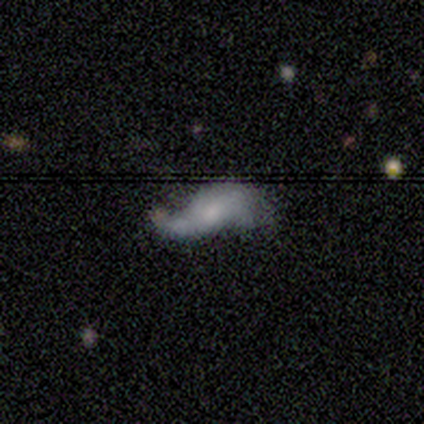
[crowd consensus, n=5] Smooth or featured: featured or disk — 80% (smooth — 20%)
Edge-on disk: no — 75% (yes — 25%)
Bar: no — 100%
Spiral arms: yes — 67% (no — 33%)
Spiral winding: loose — 100%
Spiral arm count: 2 — 100%
Bulge size: moderate — 67% (none — 33%)
Merging: minor disturbance — 60% (none — 20%)